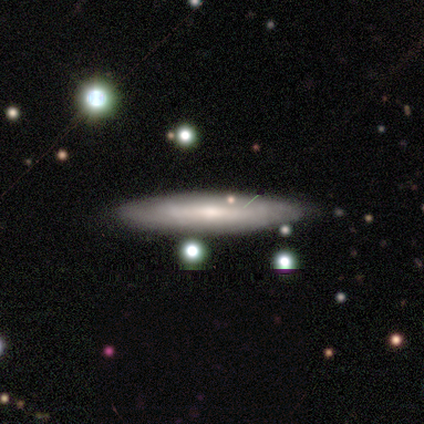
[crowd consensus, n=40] This is possibly a featured or disk galaxy (48%). It is likely viewed edge-on (63%). Edge-on bulge: possibly rounded (50%). Merging: likely none (68%).